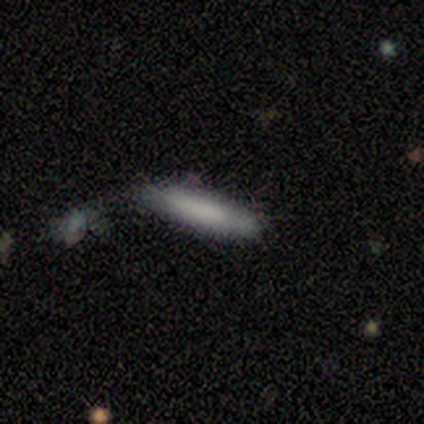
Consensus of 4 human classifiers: Smooth or featured?
  - smooth: 100% *
  - featured or disk: 0%
  - star or artifact: 0%
How rounded?
  - cigar-shaped: 100% *
  - round: 0%
  - in between: 0%
Merging?
  - minor disturbance: 75% *
  - none: 25%
  - major disturbance: 0%
  - merger: 0%